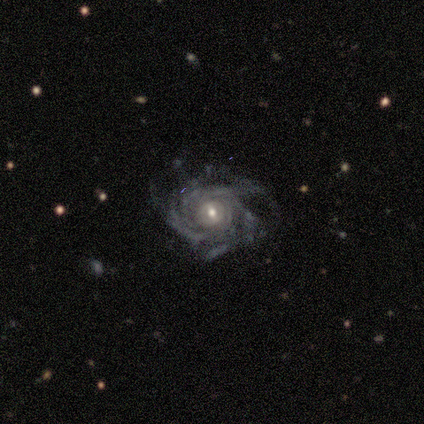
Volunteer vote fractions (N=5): smooth_or_featured: featured or disk (p=0.80) [alt: smooth p=0.20]
disk_edge_on: no (p=1.00)
bar: no (p=0.75) [alt: weak p=0.25]
has_spiral_arms: yes (p=1.00)
spiral_winding: tight (p=0.75) [alt: medium p=0.25]
spiral_arm_count: can't tell (p=0.75) [alt: 3 p=0.25]
bulge_size: moderate (p=0.75) [alt: small p=0.25]
merging: none (p=0.60) [alt: major disturbance p=0.40]